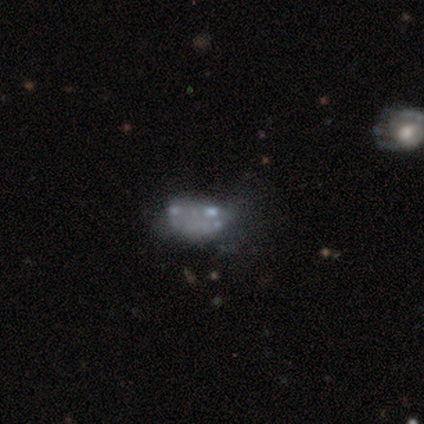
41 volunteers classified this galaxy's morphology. Smooth or featured?
  - featured or disk: 71% *
  - smooth: 24%
  - star or artifact: 5%
Edge-on disk?
  - no: 100% *
  - yes: 0%
Bar?
  - no: 100% *
  - strong: 0%
  - weak: 0%
Spiral arms?
  - no: 100% *
  - yes: 0%
Bulge size?
  - none: 76% *
  - moderate: 10%
  - small: 10%
  - dominant: 3%
  - large: 0%
Merging?
  - minor disturbance: 36% *
  - none: 31%
  - major disturbance: 18%
  - merger: 15%